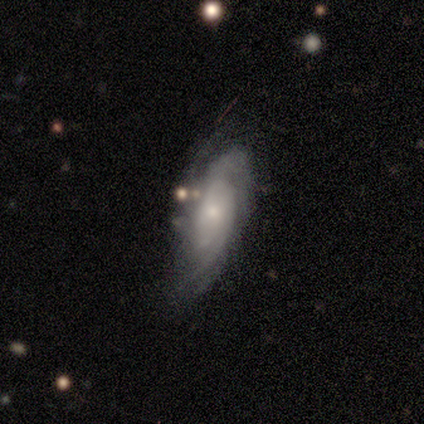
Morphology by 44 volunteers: A featured or disk galaxy (82%) with no bar (82%), tight (66%) spiral arms (94%) and a small central bulge (68%).

Vote fractions:
- Smooth or featured? featured or disk: 82% / smooth: 14% / star or artifact: 5%
- Edge-on disk? no: 94% / yes: 6%
- Bar? no: 82% / weak: 18% / strong: 0%
- Spiral arms? yes: 94% / no: 6%
- Spiral winding? tight: 66% / medium: 19% / loose: 16%
- Spiral arm count? can't tell: 53% / 2: 19% / more than 4: 16% / 3: 6% / 4: 6% / 1: 0%
- Bulge size? small: 68% / moderate: 24% / dominant: 3% / large: 3% / none: 3%
- Merging? none: 60% / minor disturbance: 29% / major disturbance: 10% / merger: 2%